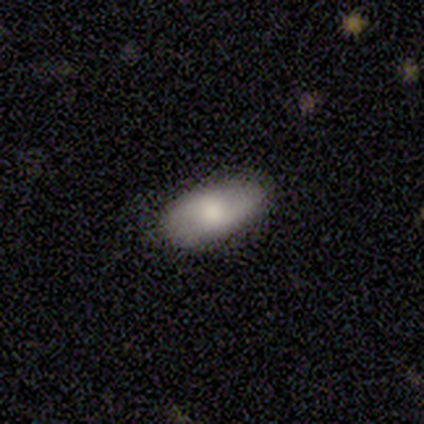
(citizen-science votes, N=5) smooth_or_featured: featured or disk (p=0.60) [alt: smooth p=0.40]
disk_edge_on: no (p=1.00)
bar: no (p=0.67) [alt: weak p=0.33]
has_spiral_arms: no (p=0.67) [alt: yes p=0.33]
bulge_size: moderate (p=0.67) [alt: large p=0.33]
merging: none (p=0.80) [alt: minor disturbance p=0.20]